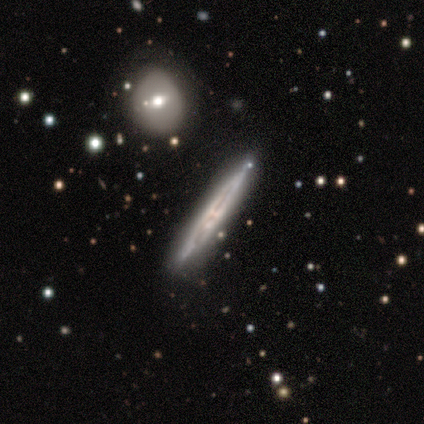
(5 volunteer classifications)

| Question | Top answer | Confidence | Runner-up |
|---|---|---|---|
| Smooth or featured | featured or disk | 100% | — |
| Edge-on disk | yes | 100% | — |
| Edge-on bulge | none | 80% | boxy (20%) |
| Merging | none | 80% | merger (20%) |